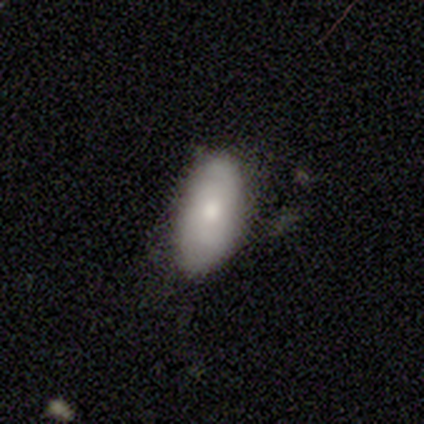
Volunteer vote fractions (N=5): Smooth or featured? smooth (60%)
How rounded? in between (100%)
Merging? none (80%)